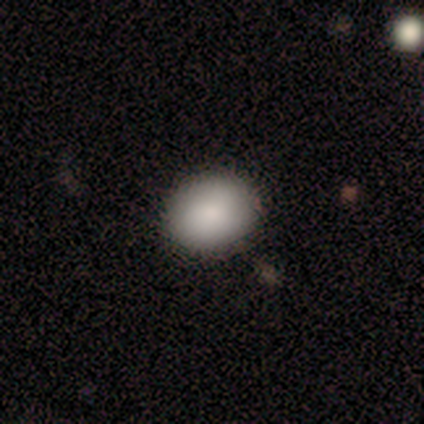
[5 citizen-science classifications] Smooth or featured? smooth (100%)
How rounded? round (60%)
Merging? none (100%)